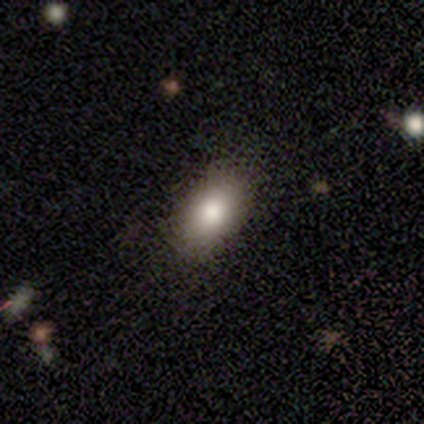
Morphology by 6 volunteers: type=smooth (67%); roundness=in between (75%); merging=none (80%).